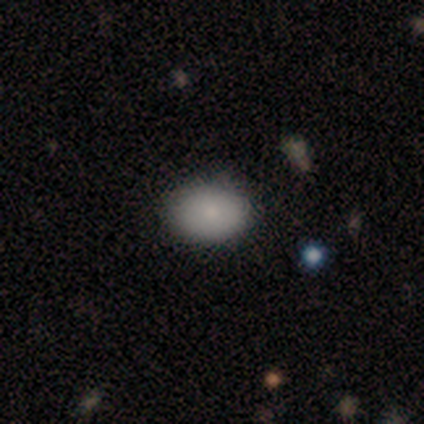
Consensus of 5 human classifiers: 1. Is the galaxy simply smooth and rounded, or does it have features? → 80% smooth, 20% featured or disk, 0% star or artifact.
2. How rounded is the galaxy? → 75% in between, 25% round, 0% cigar-shaped.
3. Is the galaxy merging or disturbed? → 100% none, 0% minor disturbance, 0% major disturbance, 0% merger.